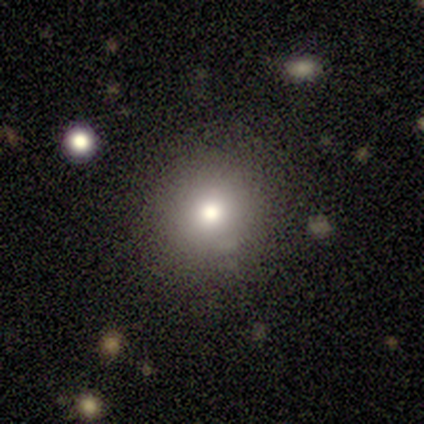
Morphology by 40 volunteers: Smooth or featured: smooth — 72% (star or artifact — 25%)
How rounded: round — 90% (in between — 10%)
Merging: none — 90% (minor disturbance — 7%)